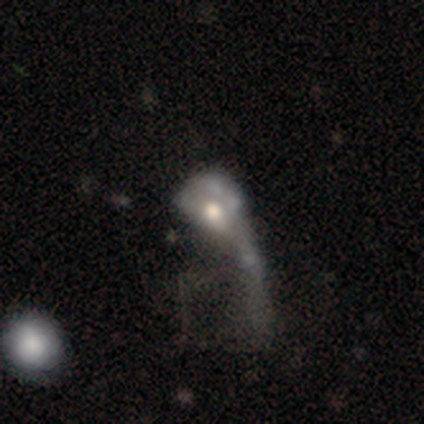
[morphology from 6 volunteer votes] Smooth or featured?
  - featured or disk: 50% *
  - smooth: 33%
  - star or artifact: 17%
Edge-on disk?
  - no: 100% *
  - yes: 0%
Bar?
  - no: 100% *
  - strong: 0%
  - weak: 0%
Spiral arms?
  - no: 100% *
  - yes: 0%
Bulge size?
  - moderate: 67% *
  - small: 33%
  - dominant: 0%
  - large: 0%
  - none: 0%
Merging?
  - major disturbance: 40% * (tied)
  - merger: 40% * (tied)
  - none: 20%
  - minor disturbance: 0%